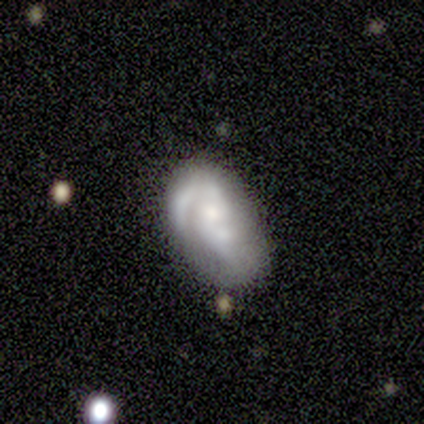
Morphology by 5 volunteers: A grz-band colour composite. It shows a featured or disk galaxy (100%) with no bar (60%), 2 (50%) medium (50%) spiral arms (80%) and a large central bulge (40%). Merging: merger (40%).